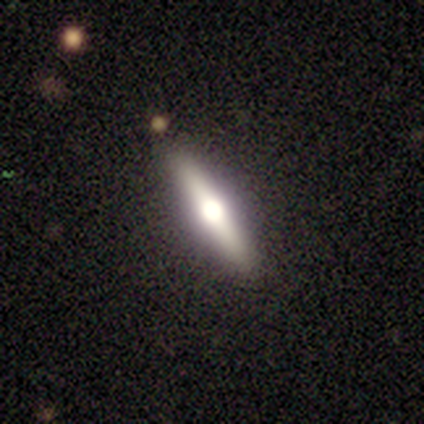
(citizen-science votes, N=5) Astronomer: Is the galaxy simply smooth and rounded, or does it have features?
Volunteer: featured or disk — 100%.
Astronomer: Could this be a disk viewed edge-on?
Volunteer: yes — 100%.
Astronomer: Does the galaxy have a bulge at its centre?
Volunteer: rounded — 80%.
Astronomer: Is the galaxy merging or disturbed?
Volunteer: none — 80%.